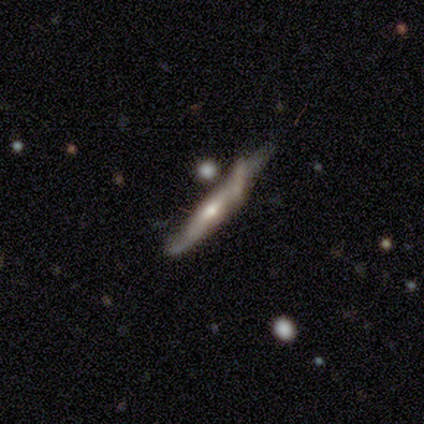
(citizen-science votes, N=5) featured or disk 80%, smooth 20%, star or artifact 0%. Down the decision tree: edge-on disk — yes (75%); edge-on bulge — none (67%); merging — none (60%).